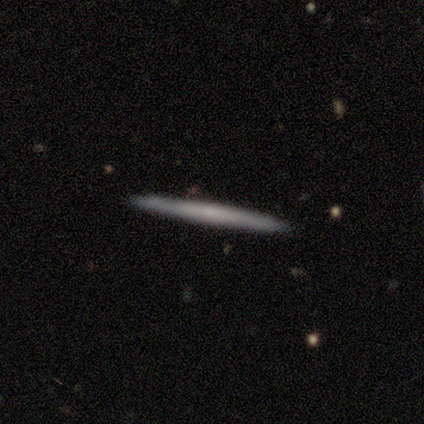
A smooth galaxy with no disk features (67%) that is cigar-shaped (100%). Merging: none (83%).